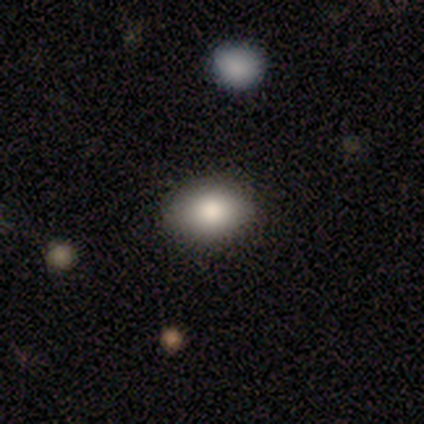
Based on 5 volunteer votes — A smooth galaxy with no disk features (100%) that is in between round and cigar-shaped (100%).

Vote fractions:
- Smooth or featured? smooth: 100% / featured or disk: 0% / star or artifact: 0%
- How rounded? in between: 100% / round: 0% / cigar-shaped: 0%
- Merging? none: 100% / minor disturbance: 0% / major disturbance: 0% / merger: 0%